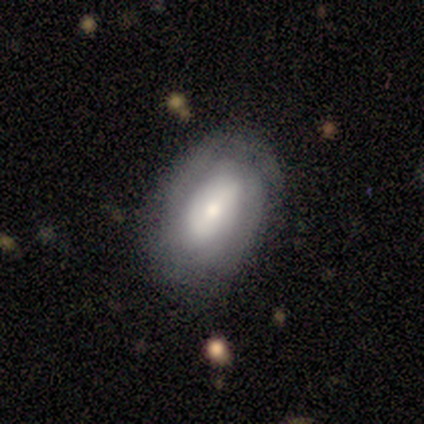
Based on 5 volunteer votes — Morphology: type=featured or disk (100%); edge-on=no (80%); bar=strong (50%, tied with weak); spiral arms=yes (100%); winding=tight (100%); arm count=can't tell (100%); bulge=small (50%); merging=none (40%, tied with minor disturbance).